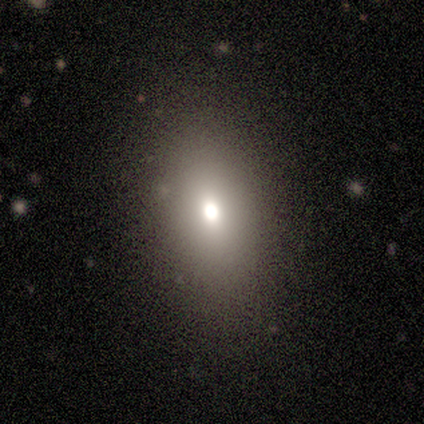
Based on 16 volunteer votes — Overall: smooth (75%). How rounded: in between (58%; round 42%). Merging: none (93%).